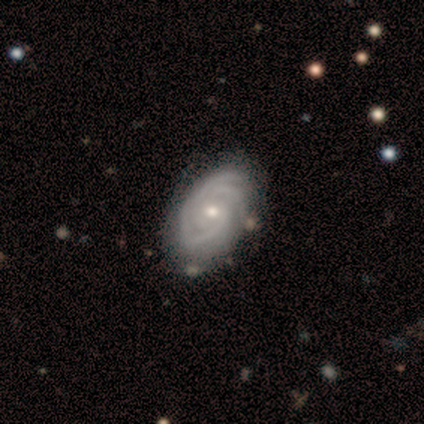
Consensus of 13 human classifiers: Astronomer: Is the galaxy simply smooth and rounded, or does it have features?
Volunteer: featured or disk — 92%.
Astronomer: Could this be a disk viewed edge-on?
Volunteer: no — 92%.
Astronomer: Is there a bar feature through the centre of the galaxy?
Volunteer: no — 100%.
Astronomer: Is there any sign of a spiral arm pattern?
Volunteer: yes — 100%.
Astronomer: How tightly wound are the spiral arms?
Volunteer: tight — 82%.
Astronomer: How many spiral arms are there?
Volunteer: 3 — 55%.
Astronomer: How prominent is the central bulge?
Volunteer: moderate — 73%.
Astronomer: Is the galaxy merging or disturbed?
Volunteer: none — 75%.